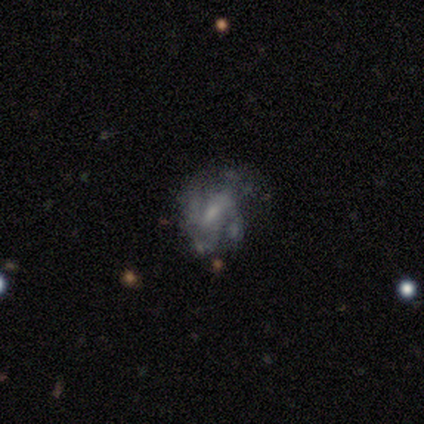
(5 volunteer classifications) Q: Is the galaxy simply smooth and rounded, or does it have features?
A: featured or disk — 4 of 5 (80%).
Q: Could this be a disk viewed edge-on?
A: no — 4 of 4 (100%).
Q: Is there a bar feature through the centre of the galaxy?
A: weak — 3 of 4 (75%).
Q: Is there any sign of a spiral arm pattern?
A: yes — 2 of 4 (50%, tied with no).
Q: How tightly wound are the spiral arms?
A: medium — 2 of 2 (100%).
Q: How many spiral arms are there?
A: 4 — 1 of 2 (50%, tied with can't tell).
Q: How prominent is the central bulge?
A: small — 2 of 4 (50%).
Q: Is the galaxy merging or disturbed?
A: none — 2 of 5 (40%, tied with major disturbance).